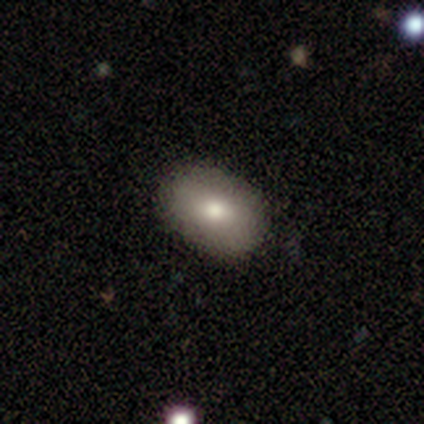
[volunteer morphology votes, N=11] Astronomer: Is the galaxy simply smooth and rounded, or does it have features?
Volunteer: smooth — 73%.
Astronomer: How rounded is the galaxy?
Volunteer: in between — 88%.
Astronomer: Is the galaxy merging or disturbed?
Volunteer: none — 100%.